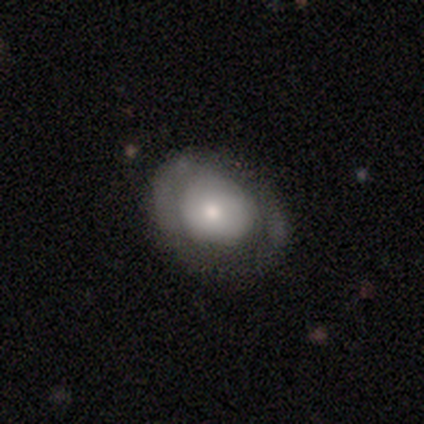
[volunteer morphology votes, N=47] smooth_or_featured: smooth (p=0.64) [alt: featured or disk p=0.32]
how_rounded: in between (p=0.53) [alt: round p=0.47]
merging: none (p=0.67) [alt: minor disturbance p=0.20]